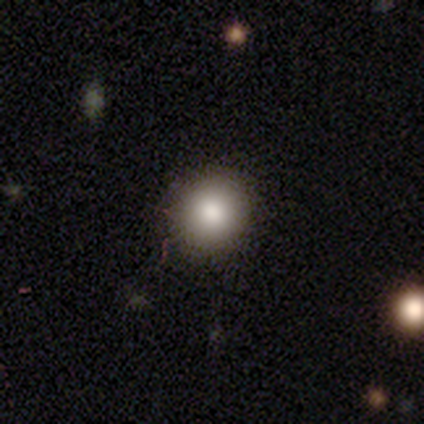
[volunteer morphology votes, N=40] This is clearly a smooth galaxy (85%). How rounded: clearly round (88%). Merging: clearly none (92%).